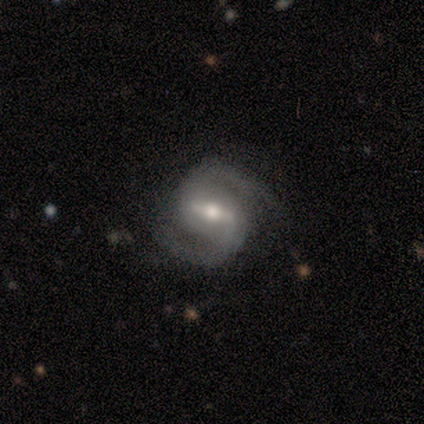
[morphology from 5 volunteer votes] featured or disk 100%, smooth 0%, star or artifact 0%. Down the decision tree: edge-on disk — no (100%); bar — weak (80%); spiral arms — yes (100%); spiral arm count — 2 (100%); spiral winding — medium (100%); bulge size — small (60%); merging — none (80%).